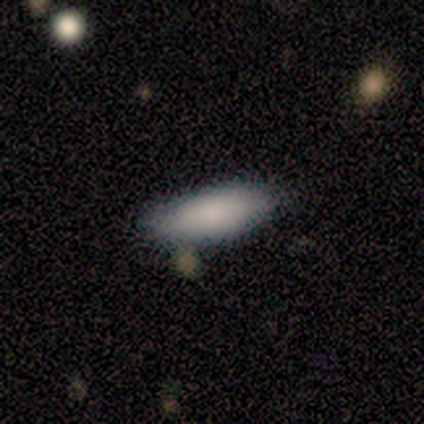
Morphology: type=smooth (100%); roundness=in between (60%); merging=none (80%).